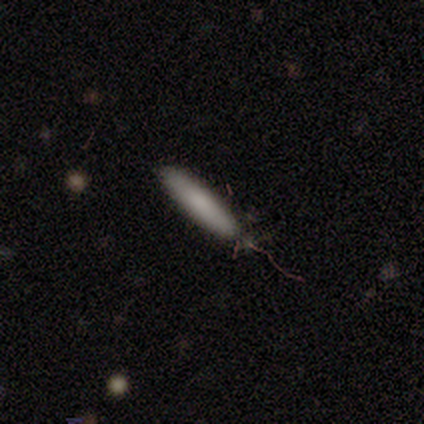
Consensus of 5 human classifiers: This is clearly a smooth galaxy (100%). How rounded: clearly cigar-shaped (80%). Merging: clearly none (80%).